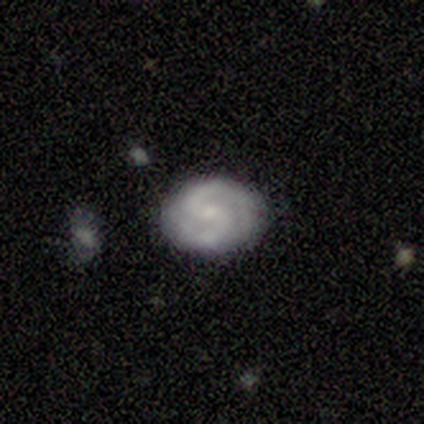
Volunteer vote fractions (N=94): Smooth or featured? 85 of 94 (90%) said featured or disk. Edge-on disk? 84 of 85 (99%) said no. Bar? 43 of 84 (51%) said weak. Spiral arms? 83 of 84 (99%) said yes. Spiral winding? 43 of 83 (52%) said medium. Spiral arm count? 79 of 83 (95%) said 2. Bulge size? 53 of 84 (63%) said small. Merging? 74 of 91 (81%) said none.